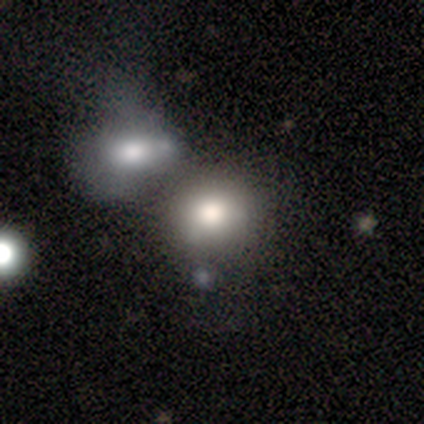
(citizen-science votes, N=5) Smooth or featured? smooth (60%)
How rounded? round (100%)
Merging? merger (50%)